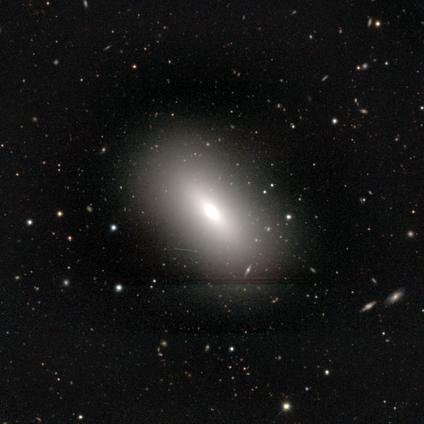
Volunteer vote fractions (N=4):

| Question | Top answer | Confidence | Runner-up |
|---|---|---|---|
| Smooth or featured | smooth | 50% | tied: featured or disk (50%) |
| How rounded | in between | 100% | — |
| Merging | none | 100% | — |